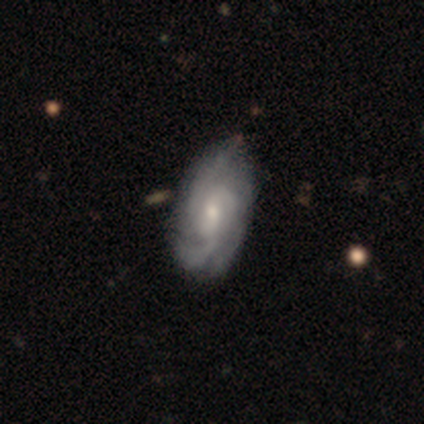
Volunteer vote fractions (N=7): This appears to be a featured or disk galaxy (86%) with no bar (67%), medium (67%) spiral arms (100%) and a small central bulge (67%). Merging: none (100%).